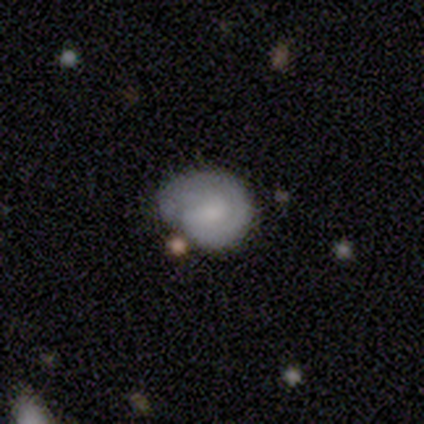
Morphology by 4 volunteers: Smooth or featured: featured or disk — 75% (smooth — 25%)
Edge-on disk: no — 100%
Bar: no — 67% (weak — 33%)
Spiral arms: yes — 100%
Spiral winding: medium — 67% (tight — 33%)
Spiral arm count: can't tell — 67% (1 — 33%)
Bulge size: moderate — 33% (tied with small — 33%; none — 33%)
Merging: none — 50% (tied with minor disturbance — 50%)